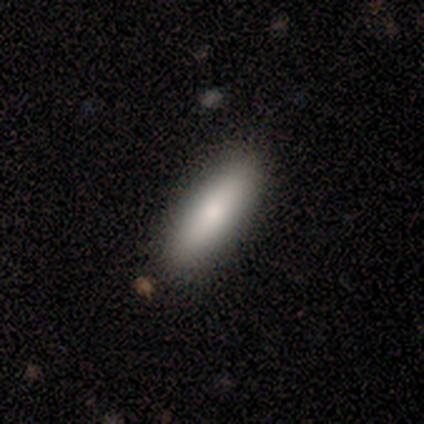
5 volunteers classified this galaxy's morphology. type=smooth (40%, tied with star or artifact); roundness=cigar-shaped (100%); merging=none (100%).